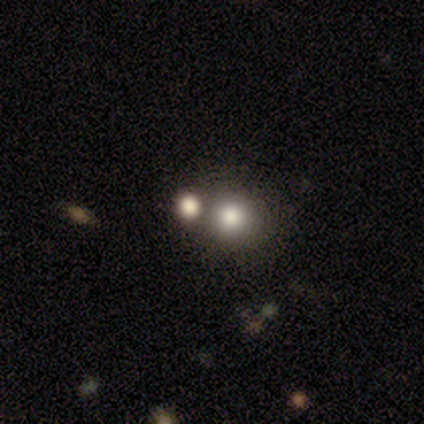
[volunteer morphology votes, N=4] A smooth galaxy with no disk features (50%) that is round (100%).

Vote fractions:
- Smooth or featured? smooth: 50% / featured or disk: 25% / star or artifact: 25%
- How rounded? round: 100% / in between: 0% / cigar-shaped: 0%
- Merging? merger: 67% / none: 33% / minor disturbance: 0% / major disturbance: 0%